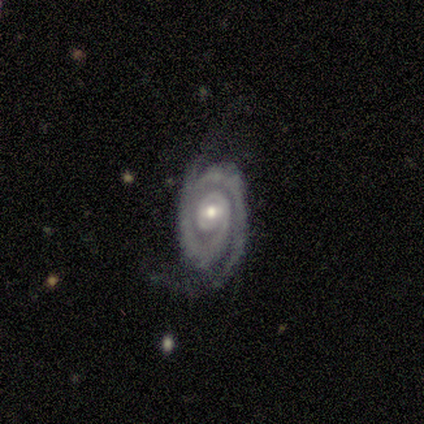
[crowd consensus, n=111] Smooth or featured: featured or disk — 94% (smooth — 4%)
Edge-on disk: no — 99% (yes — 1%)
Bar: no — 64% (weak — 27%)
Spiral arms: yes — 98% (no — 2%)
Spiral winding: tight — 70% (medium — 20%)
Spiral arm count: 2 — 86% (1 — 8%)
Bulge size: moderate — 63% (small — 34%)
Merging: none — 55% (minor disturbance — 27%)